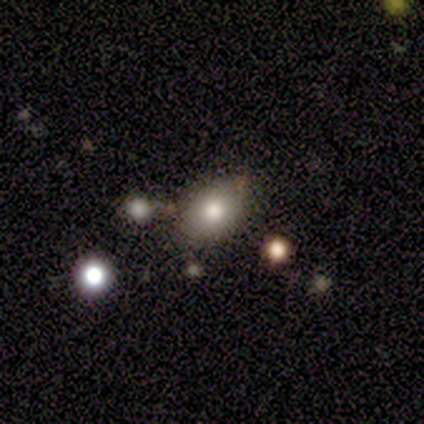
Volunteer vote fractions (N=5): Morphology: type=smooth (60%); roundness=in between (67%); merging=none (60%).